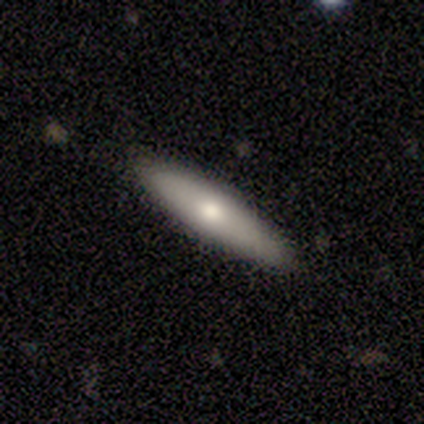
smooth-or-featured: smooth: 80% | featured or disk: 20% | star or artifact: 0%
  how-rounded: cigar-shaped: 75% | in between: 25% | round: 0%
  merging: none: 100% | minor disturbance: 0% | major disturbance: 0% | merger: 0%